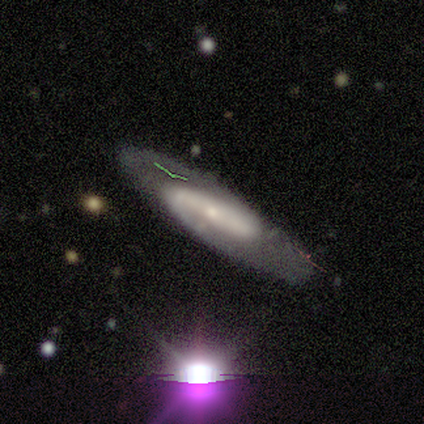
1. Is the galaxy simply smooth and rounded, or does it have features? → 80% featured or disk, 20% star or artifact, 0% smooth.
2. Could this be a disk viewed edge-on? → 75% no, 25% yes.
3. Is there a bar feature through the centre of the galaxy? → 67% weak, 33% strong, 0% no.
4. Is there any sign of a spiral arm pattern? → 100% yes, 0% no.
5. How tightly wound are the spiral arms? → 67% medium, 33% loose, 0% tight.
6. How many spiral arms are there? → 67% 2, 33% 1, 0% 3, 0% 4, 0% more than 4, 0% can't tell.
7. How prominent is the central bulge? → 100% small, 0% dominant, 0% large, 0% moderate, 0% none.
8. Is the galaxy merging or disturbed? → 75% none, 25% minor disturbance, 0% major disturbance, 0% merger.